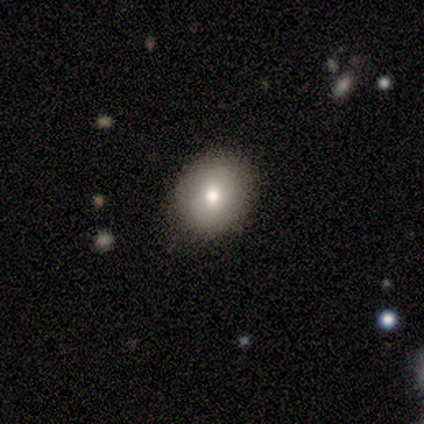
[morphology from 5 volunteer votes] type=smooth (100%); roundness=in between (80%); merging=none (80%).